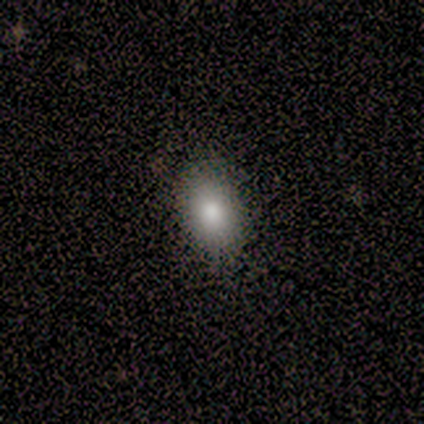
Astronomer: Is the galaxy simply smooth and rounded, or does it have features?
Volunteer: smooth — 100%.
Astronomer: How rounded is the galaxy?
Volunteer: in between — 100%.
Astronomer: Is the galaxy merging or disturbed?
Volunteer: none — 100%.